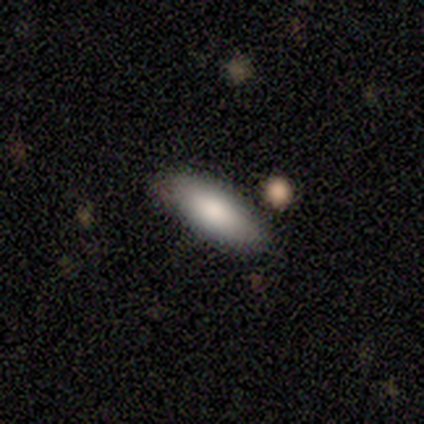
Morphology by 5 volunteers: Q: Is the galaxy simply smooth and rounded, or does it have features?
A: smooth — 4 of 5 (80%).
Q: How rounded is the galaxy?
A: in between — 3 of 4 (75%).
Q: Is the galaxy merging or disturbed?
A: none — 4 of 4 (100%).